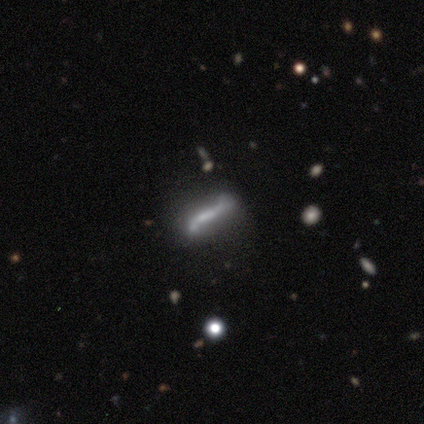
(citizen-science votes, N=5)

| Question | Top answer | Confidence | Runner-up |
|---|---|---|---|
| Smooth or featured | featured or disk | 100% | — |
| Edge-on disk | yes | 80% | no (20%) |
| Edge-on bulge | none | 50% | boxy (25%) |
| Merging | none | 100% | — |